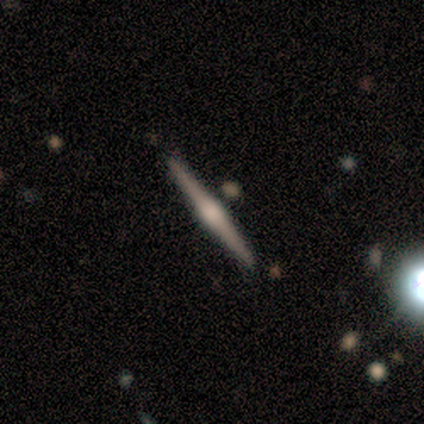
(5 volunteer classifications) smooth_or_featured: featured or disk (p=0.80) [alt: star or artifact p=0.20]
disk_edge_on: yes (p=1.00)
edge_on_bulge: rounded (p=0.75) [alt: boxy p=0.25]
merging: none (p=1.00)